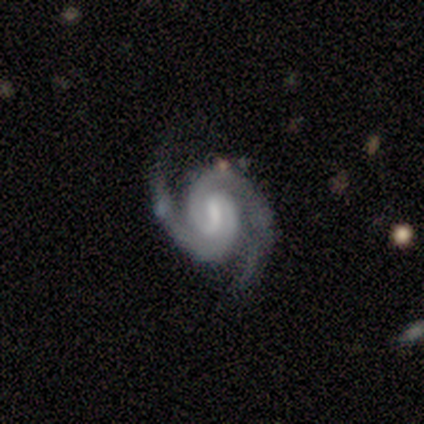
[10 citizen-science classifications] smooth-or-featured: featured or disk: 100% | smooth: 0% | star or artifact: 0%
  disk-edge-on: no: 100% | yes: 0%
    bar: weak: 60% | strong: 20% | no: 20%
    has-spiral-arms: yes: 100% | no: 0%
      spiral-winding: tight: 60% | medium: 40% | loose: 0%
      spiral-arm-count: 2: 100% | 1: 0% | 3: 0% | 4: 0% | more than 4: 0% | can't tell: 0%
    bulge-size: moderate: 40% | none: 30% | small: 20% | large: 10% | dominant: 0%
  merging: none: 90% | minor disturbance: 10% | major disturbance: 0% | merger: 0%